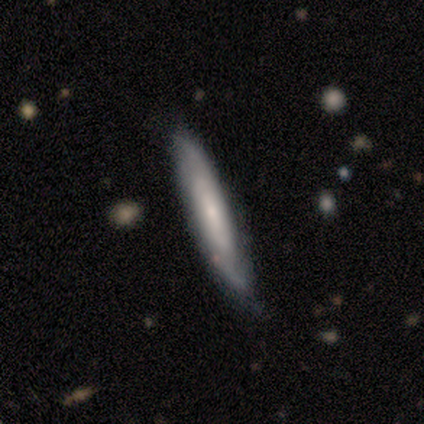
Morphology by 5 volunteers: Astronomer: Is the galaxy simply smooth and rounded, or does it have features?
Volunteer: smooth — 60% (runner-up: featured or disk, 40%).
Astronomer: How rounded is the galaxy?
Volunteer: cigar-shaped — 100%.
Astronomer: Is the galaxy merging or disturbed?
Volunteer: none — 60% (runner-up: minor disturbance, 40%).